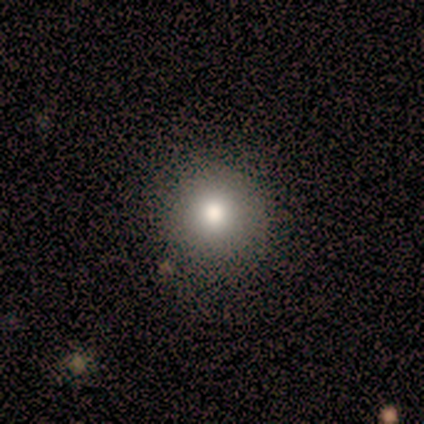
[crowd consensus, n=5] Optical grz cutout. It shows a smooth galaxy with no disk features (80%) that is round (100%). Merging: none (100%).